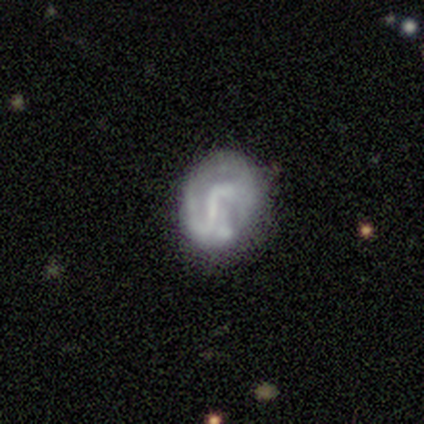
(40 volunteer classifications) A featured or disk galaxy (62%) with a weak bar (48%), 2 (44%, tied with can't tell) medium (44%, tied with loose) spiral arms (64%) and no central bulge (60%). Merging: none (73%).